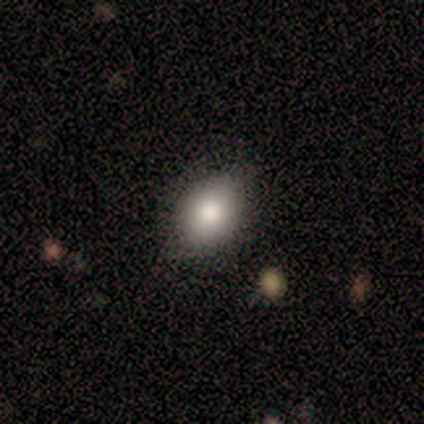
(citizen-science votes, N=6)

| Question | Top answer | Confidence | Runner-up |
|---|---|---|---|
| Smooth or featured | smooth | 83% | star or artifact (17%) |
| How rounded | in between | 100% | — |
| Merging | none | 80% | minor disturbance (20%) |